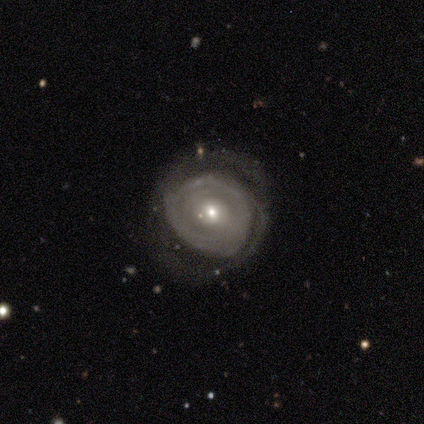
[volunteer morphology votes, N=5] This appears to be a featured or disk galaxy (80%) with no bar (67%), no spiral arms (67%) and a small central bulge (67%). Merging: none (50%, tied with major disturbance).